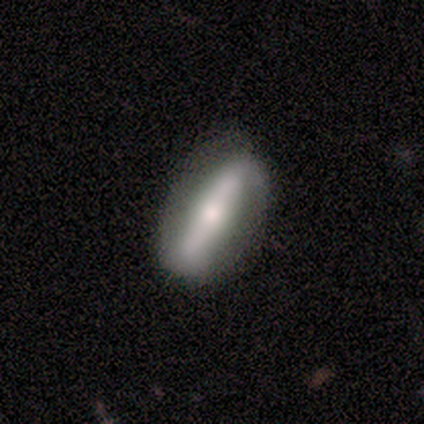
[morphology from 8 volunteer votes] Q: Smooth or featured?
A: featured or disk (88%); runner-up: smooth (12%)
Q: Edge-on disk?
A: no (71%); runner-up: yes (29%)
Q: Bar?
A: strong (60%); runner-up: weak (40%)
Q: Spiral arms?
A: no (80%); runner-up: yes (20%)
Q: Bulge size?
A: moderate (40%); tied with: small (40%)
Q: Merging?
A: none (88%); runner-up: minor disturbance (12%)